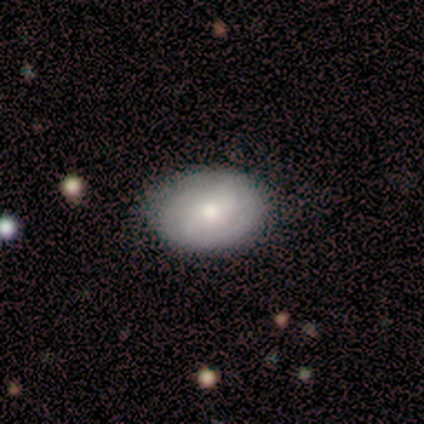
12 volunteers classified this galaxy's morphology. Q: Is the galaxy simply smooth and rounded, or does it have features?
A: featured or disk — 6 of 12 (50%).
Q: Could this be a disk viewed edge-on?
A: no — 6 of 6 (100%).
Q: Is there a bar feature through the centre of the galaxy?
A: no — 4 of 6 (67%).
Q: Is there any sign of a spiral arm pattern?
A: yes — 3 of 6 (50%, tied with no).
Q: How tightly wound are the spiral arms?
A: medium — 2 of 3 (67%).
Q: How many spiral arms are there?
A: can't tell — 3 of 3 (100%).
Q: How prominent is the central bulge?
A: small — 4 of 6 (67%).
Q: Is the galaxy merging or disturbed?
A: none — 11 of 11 (100%).